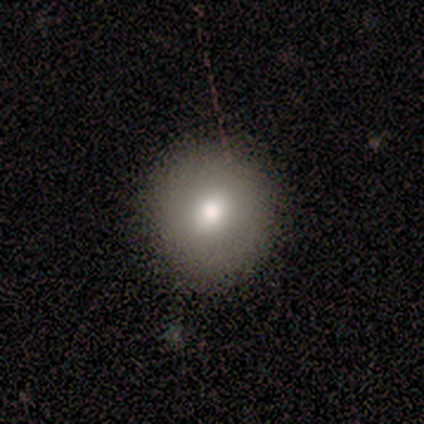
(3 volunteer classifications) Q: Smooth or featured?
A: smooth (100%)
Q: How rounded?
A: round (100%)
Q: Merging?
A: none (100%)